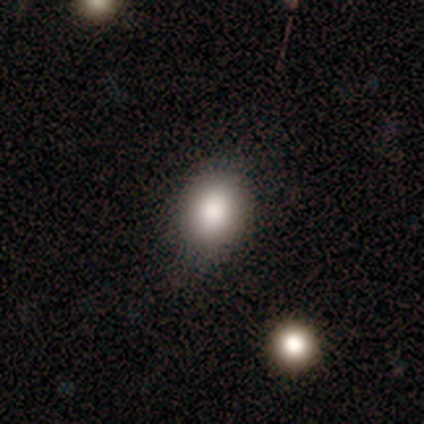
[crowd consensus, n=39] Smooth or featured: smooth — 90% (featured or disk — 8%)
How rounded: round — 51% (in between — 49%)
Merging: none — 74% (minor disturbance — 21%)